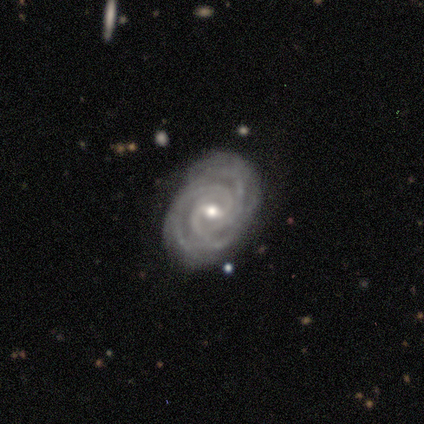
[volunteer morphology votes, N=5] Smooth or featured?
  - featured or disk: 100% *
  - smooth: 0%
  - star or artifact: 0%
Edge-on disk?
  - no: 100% *
  - yes: 0%
Bar?
  - weak: 60% *
  - no: 40%
  - strong: 0%
Spiral arms?
  - yes: 100% *
  - no: 0%
Spiral winding?
  - tight: 100% *
  - medium: 0%
  - loose: 0%
Spiral arm count?
  - 3: 40% *
  - 2: 20%
  - more than 4: 20%
  - can't tell: 20%
  - 1: 0%
  - 4: 0%
Bulge size?
  - moderate: 60% *
  - small: 40%
  - dominant: 0%
  - large: 0%
  - none: 0%
Merging?
  - none: 100% *
  - minor disturbance: 0%
  - major disturbance: 0%
  - merger: 0%